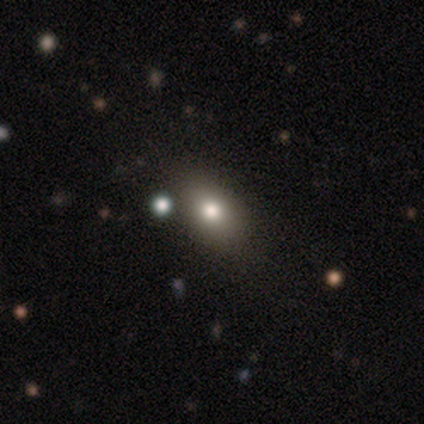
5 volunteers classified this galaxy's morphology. Q: Smooth or featured?
A: smooth (80%); runner-up: star or artifact (20%)
Q: How rounded?
A: in between (75%); runner-up: round (25%)
Q: Merging?
A: none (75%); runner-up: minor disturbance (25%)